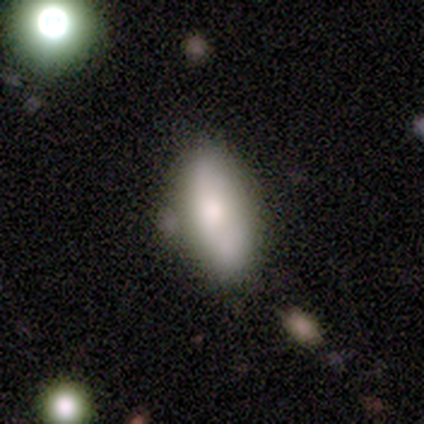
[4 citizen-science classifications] Smooth or featured? smooth (75%)
How rounded? in between (100%)
Merging? none (67%)